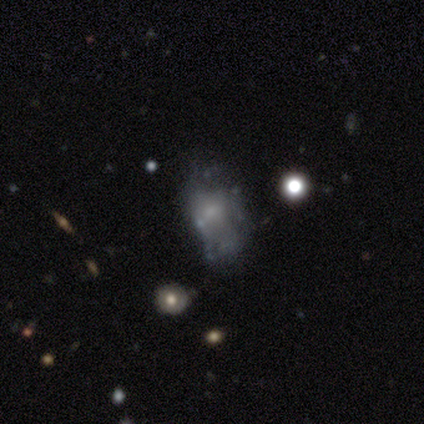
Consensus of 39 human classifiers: A featured or disk galaxy (54%) with no bar (90%), no spiral arms (90%) and no central bulge (52%).

Vote fractions:
- Smooth or featured? featured or disk: 54% / smooth: 31% / star or artifact: 15%
- Edge-on disk? no: 100% / yes: 0%
- Bar? no: 90% / strong: 5% / weak: 5%
- Spiral arms? no: 90% / yes: 10%
- Bulge size? none: 52% / small: 29% / moderate: 14% / large: 5% / dominant: 0%
- Merging? none: 45% / major disturbance: 27% / minor disturbance: 24% / merger: 3%